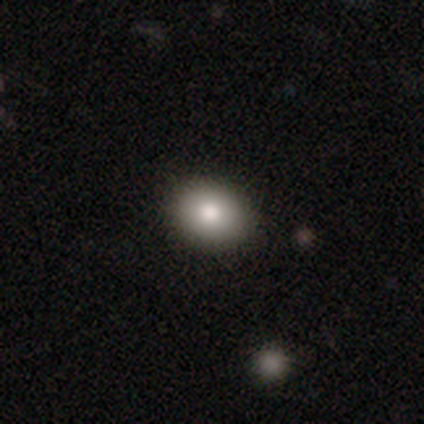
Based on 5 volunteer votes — A featured or disk galaxy (60%) with no bar (100%), no spiral arms (100%) and a large central bulge (100%). Merging: none (75%).